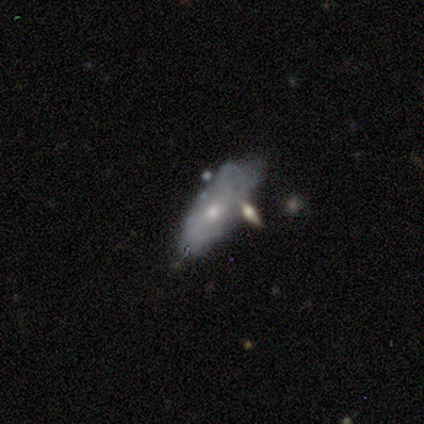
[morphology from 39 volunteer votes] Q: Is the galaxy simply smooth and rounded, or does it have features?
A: featured or disk — 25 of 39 (64%).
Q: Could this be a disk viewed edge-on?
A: no — 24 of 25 (96%).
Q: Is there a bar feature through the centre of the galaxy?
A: no — 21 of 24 (88%).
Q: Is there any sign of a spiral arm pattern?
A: no — 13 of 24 (54%).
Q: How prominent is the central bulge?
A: moderate — 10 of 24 (42%, tied with small).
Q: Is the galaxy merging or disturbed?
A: minor disturbance — 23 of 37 (62%).